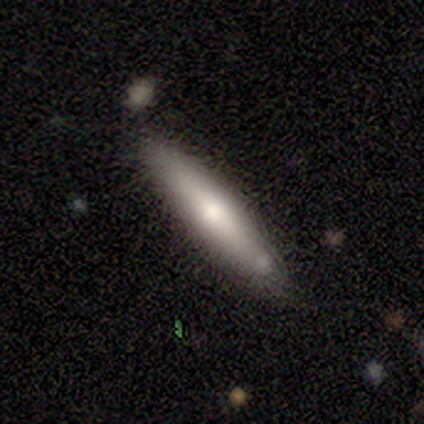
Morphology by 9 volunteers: A smooth galaxy with no disk features (67%) that is cigar-shaped (67%). Merging: none (89%).